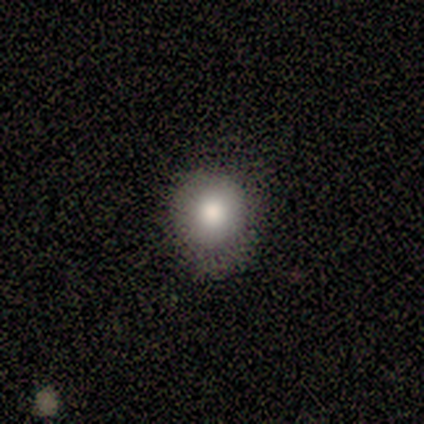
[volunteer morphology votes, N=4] This appears to be a smooth galaxy with no disk features (75%) that is round (100%). Merging: none (67%).